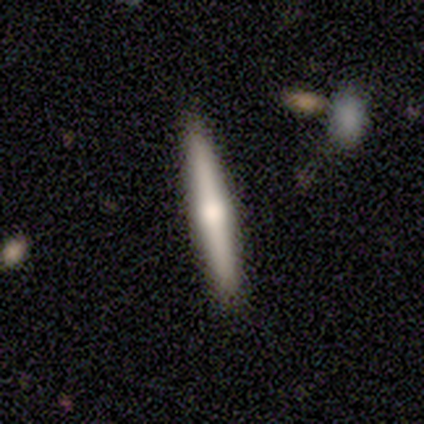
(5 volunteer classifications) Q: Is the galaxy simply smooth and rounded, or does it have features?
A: featured or disk — 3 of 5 (60%).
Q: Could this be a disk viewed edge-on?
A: yes — 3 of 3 (100%).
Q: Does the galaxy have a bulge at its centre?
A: rounded — 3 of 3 (100%).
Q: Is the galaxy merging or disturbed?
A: none — 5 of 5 (100%).